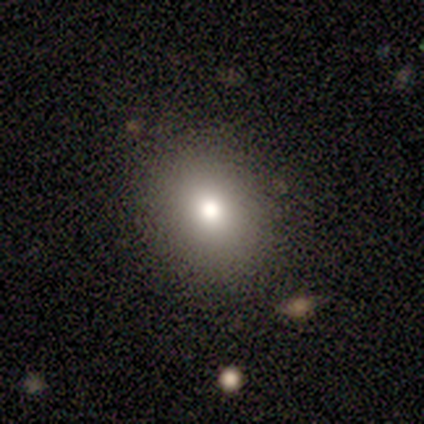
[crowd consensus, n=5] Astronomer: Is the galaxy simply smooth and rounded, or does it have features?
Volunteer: smooth — 100%.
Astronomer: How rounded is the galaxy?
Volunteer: round — 80%.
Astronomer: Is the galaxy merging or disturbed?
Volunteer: none — 100%.